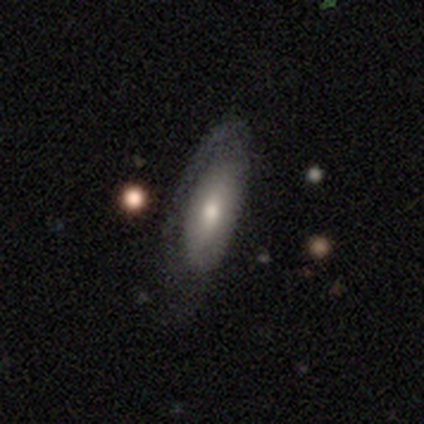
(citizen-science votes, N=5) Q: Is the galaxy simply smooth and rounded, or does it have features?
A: featured or disk — 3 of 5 (60%).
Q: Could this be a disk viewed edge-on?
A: no — 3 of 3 (100%).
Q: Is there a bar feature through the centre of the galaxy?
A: weak — 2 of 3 (67%).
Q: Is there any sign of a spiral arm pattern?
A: yes — 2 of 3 (67%).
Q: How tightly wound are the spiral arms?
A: tight — 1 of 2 (50%, tied with loose).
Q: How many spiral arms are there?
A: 1 — 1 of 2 (50%, tied with 2).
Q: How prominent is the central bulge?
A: moderate — 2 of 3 (67%).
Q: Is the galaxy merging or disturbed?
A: none — 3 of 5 (60%).